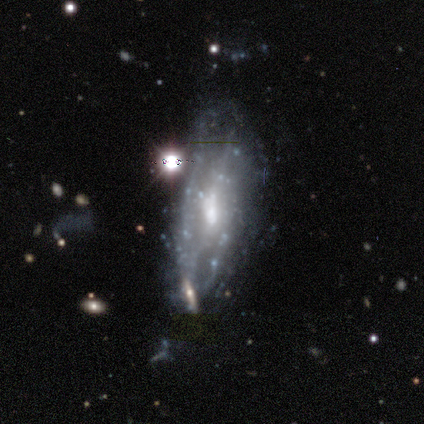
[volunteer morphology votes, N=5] Q: Smooth or featured?
A: featured or disk (80%); runner-up: smooth (20%)
Q: Edge-on disk?
A: no (75%); runner-up: yes (25%)
Q: Bar?
A: weak (67%); runner-up: no (33%)
Q: Spiral arms?
A: yes (67%); runner-up: no (33%)
Q: Spiral winding?
A: medium (50%); tied with: loose (50%)
Q: Spiral arm count?
A: 2 (50%); tied with: 3 (50%)
Q: Bulge size?
A: moderate (67%); runner-up: small (33%)
Q: Merging?
A: none (40%); tied with: minor disturbance (40%)